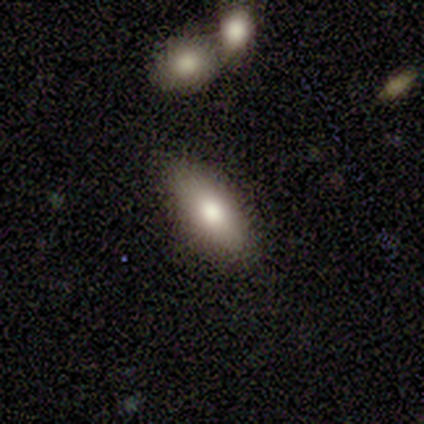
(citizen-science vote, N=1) Q: Smooth or featured?
A: smooth (100%)
Q: How rounded?
A: cigar-shaped (100%)
Q: Merging?
A: minor disturbance (100%)